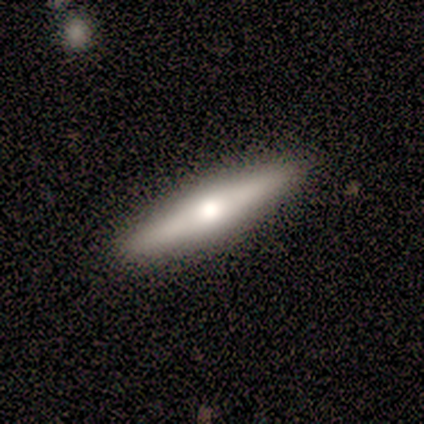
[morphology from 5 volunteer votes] featured or disk 60%, smooth 40%, star or artifact 0%. Down the decision tree: edge-on disk — yes (100%); edge-on bulge — rounded (100%); merging — none (100%).